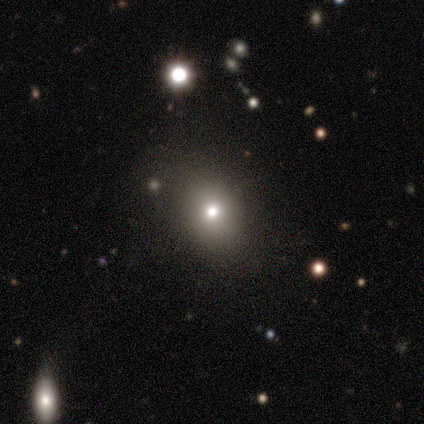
Morphology: type=smooth (100%); roundness=round (60%); merging=minor disturbance (60%).